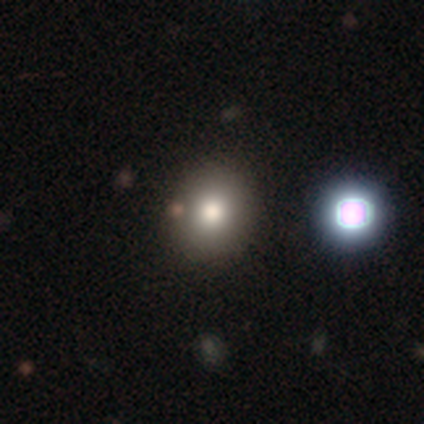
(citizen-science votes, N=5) smooth_or_featured: smooth (p=0.80) [alt: featured or disk p=0.20]
how_rounded: round (p=1.00)
merging: none (p=1.00)